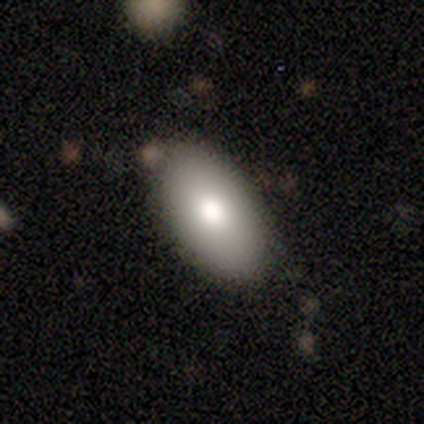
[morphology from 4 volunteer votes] smooth_or_featured: smooth (p=0.50) [tied with: featured or disk p=0.50]
how_rounded: in between (p=1.00)
merging: none (p=0.75) [alt: minor disturbance p=0.25]